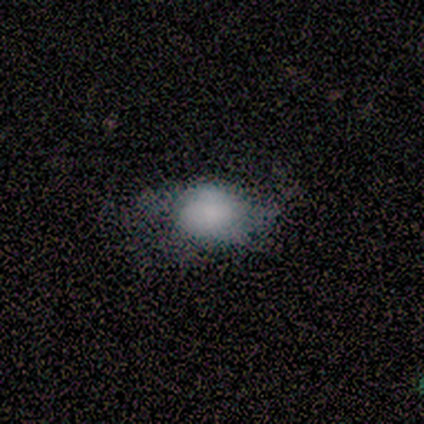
smooth_or_featured: smooth (p=0.75) [alt: featured or disk p=0.25]
how_rounded: in between (p=0.67) [alt: round p=0.33]
merging: minor disturbance (p=0.75) [alt: none p=0.25]